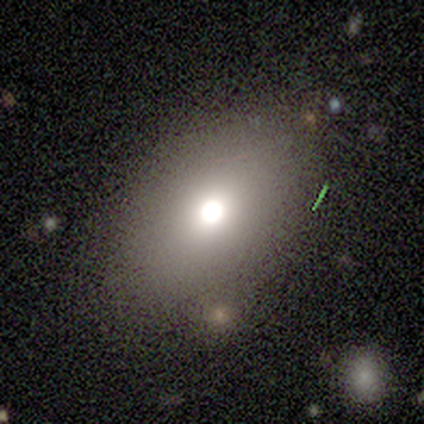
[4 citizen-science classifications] Smooth or featured: smooth — 100%
How rounded: in between — 75% (round — 25%)
Merging: none — 75% (major disturbance — 25%)